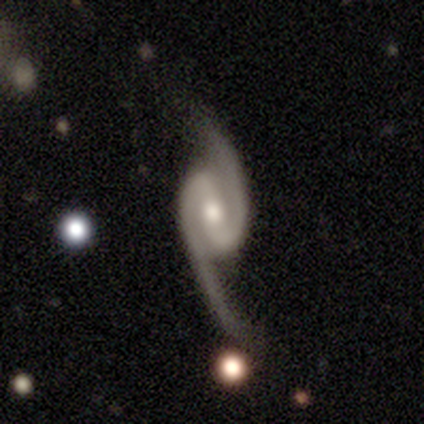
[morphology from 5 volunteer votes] type=featured or disk (60%); edge-on=no (100%); bar=weak (100%); spiral arms=yes (67%); winding=tight (100%); arm count=2 (100%); bulge=small (67%); merging=none (40%, tied with major disturbance).